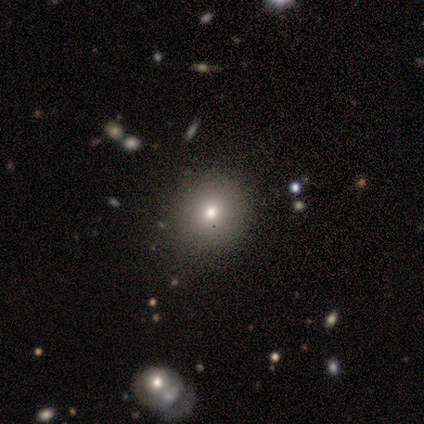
Smooth or featured?
  - smooth: 76% *
  - star or artifact: 15%
  - featured or disk: 10%
How rounded?
  - round: 90% *
  - in between: 10%
  - cigar-shaped: 0%
Merging?
  - none: 63% *
  - minor disturbance: 3%
  - major disturbance: 0%
  - merger: 0%